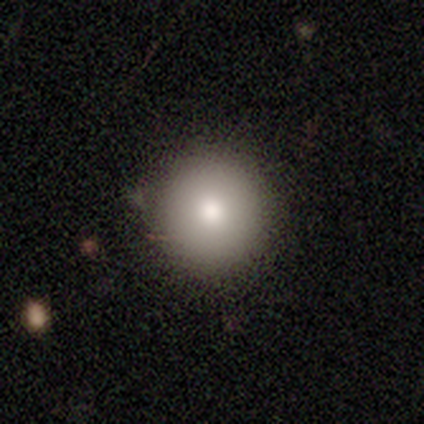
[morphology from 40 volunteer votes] This is clearly a smooth galaxy (85%). How rounded: clearly round (100%). Merging: likely none (68%).